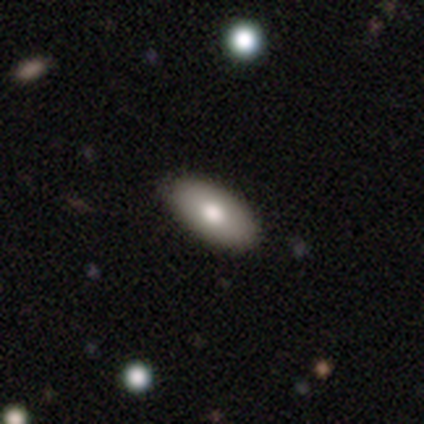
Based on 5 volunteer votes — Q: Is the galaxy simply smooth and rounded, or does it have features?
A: smooth — 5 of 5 (100%).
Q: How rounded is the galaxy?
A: in between — 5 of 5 (100%).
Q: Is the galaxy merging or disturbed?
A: none — 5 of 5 (100%).